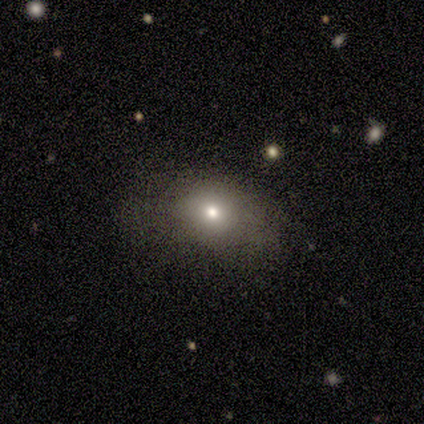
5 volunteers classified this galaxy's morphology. Q: Smooth or featured?
A: smooth (40%); tied with: star or artifact (40%)
Q: How rounded?
A: in between (100%)
Q: Merging?
A: none (100%)